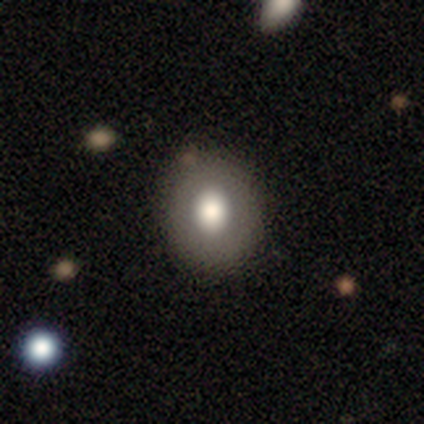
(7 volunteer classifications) A smooth galaxy with no disk features (71%) that is in between round and cigar-shaped (60%). Merging: none (100%).